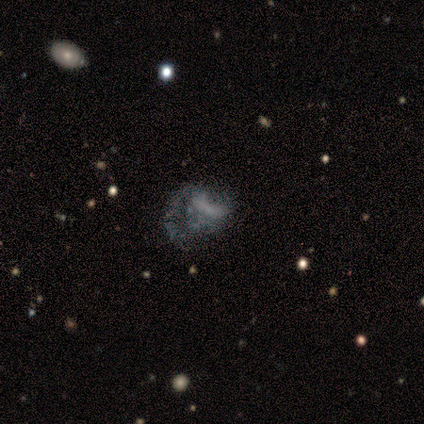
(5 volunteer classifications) A featured or disk galaxy (60%) with no bar (100%), no spiral arms (100%) and no central bulge (100%).

Vote fractions:
- Smooth or featured? featured or disk: 60% / smooth: 20% / star or artifact: 20%
- Edge-on disk? no: 100% / yes: 0%
- Bar? no: 100% / strong: 0% / weak: 0%
- Spiral arms? no: 100% / yes: 0%
- Bulge size? none: 100% / dominant: 0% / large: 0% / moderate: 0% / small: 0%
- Merging? major disturbance: 75% / none: 25% / minor disturbance: 0% / merger: 0%